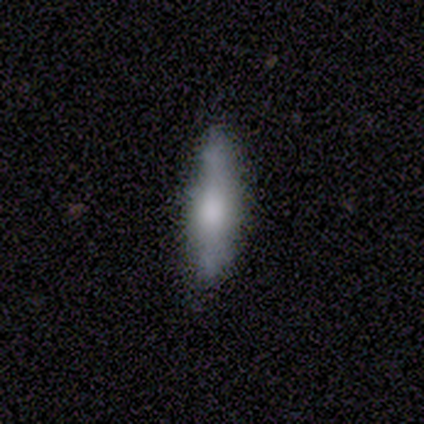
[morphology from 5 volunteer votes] Smooth or featured: featured or disk — 60% (smooth — 20%)
Edge-on disk: yes — 67% (no — 33%)
Edge-on bulge: rounded — 100%
Merging: none — 50% (tied with minor disturbance — 50%)